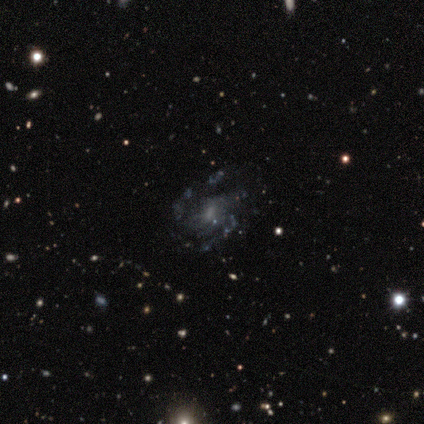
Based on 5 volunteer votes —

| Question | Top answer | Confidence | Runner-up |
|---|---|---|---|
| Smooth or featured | featured or disk | 100% | — |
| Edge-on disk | no | 100% | — |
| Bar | weak | 80% | no (20%) |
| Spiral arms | yes | 100% | — |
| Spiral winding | medium | 80% | loose (20%) |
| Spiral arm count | can't tell | 60% | 3 (20%) |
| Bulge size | small | 60% | moderate (20%) |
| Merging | none | 60% | major disturbance (40%) |